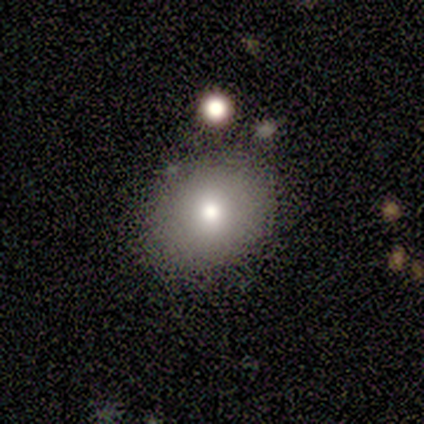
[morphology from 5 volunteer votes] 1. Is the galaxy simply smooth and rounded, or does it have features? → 100% smooth, 0% featured or disk, 0% star or artifact.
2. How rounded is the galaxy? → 80% in between, 20% round, 0% cigar-shaped.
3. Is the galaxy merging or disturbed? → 80% none, 20% minor disturbance, 0% major disturbance, 0% merger.